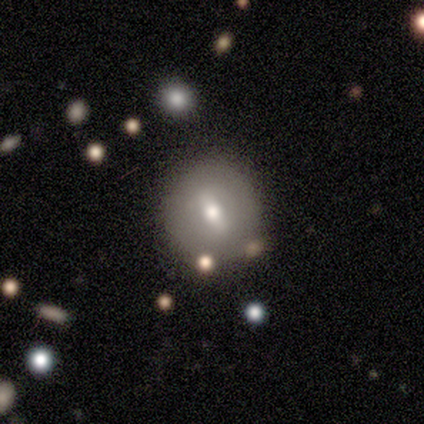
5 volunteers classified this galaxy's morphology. A smooth galaxy with no disk features (40%, tied with featured or disk) that is round (100%). Merging: none (75%).